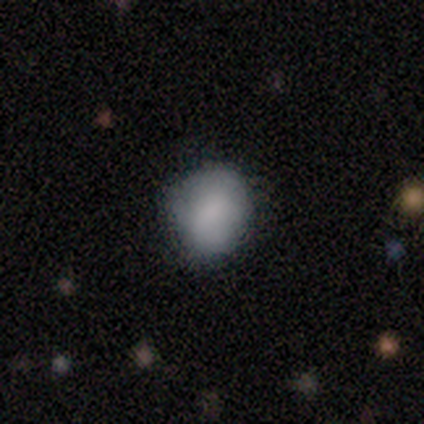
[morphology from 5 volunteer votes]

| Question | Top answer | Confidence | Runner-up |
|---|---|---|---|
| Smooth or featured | smooth | 100% | — |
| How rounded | round | 60% | in between (40%) |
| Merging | none | 60% | minor disturbance (40%) |